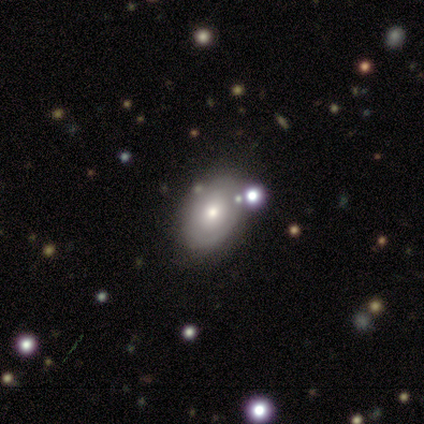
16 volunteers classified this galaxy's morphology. This is marginally a featured or disk galaxy (44%). It is clearly not viewed edge-on (100%). Bar: clearly no (100%). Spiral arm pattern: possibly yes (57%). Spiral arm count: likely 2 (75%). Spiral winding: possibly tight (50%, tied with loose). Central bulge: possibly moderate (57%). Merging: marginally none (23%, tied with minor disturbance).